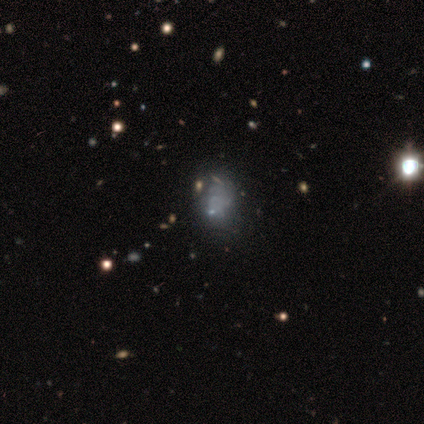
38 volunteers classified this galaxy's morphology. This is marginally a smooth galaxy (45%). How rounded: clearly in between (82%). Merging: possibly none (59%).